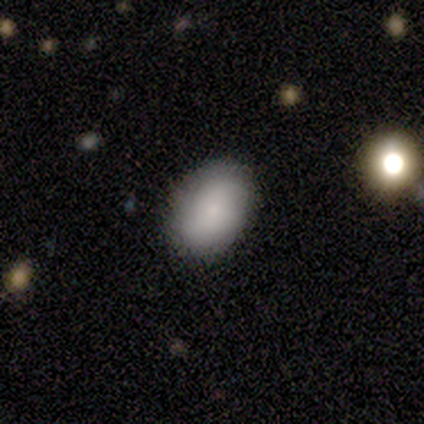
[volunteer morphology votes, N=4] Smooth or featured?
  - smooth: 50% *
  - featured or disk: 25%
  - star or artifact: 25%
How rounded?
  - in between: 100% *
  - round: 0%
  - cigar-shaped: 0%
Merging?
  - none: 67% *
  - minor disturbance: 33%
  - major disturbance: 0%
  - merger: 0%